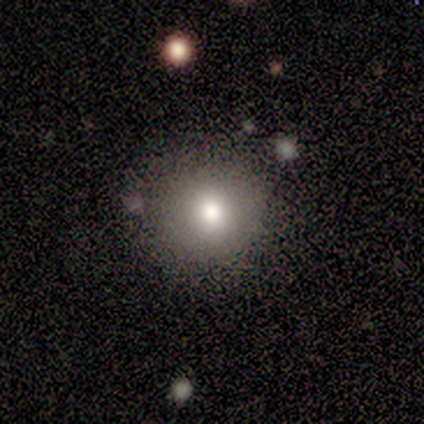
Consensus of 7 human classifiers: Smooth or featured? smooth (43%)
How rounded? round (67%)
Merging? none (80%)